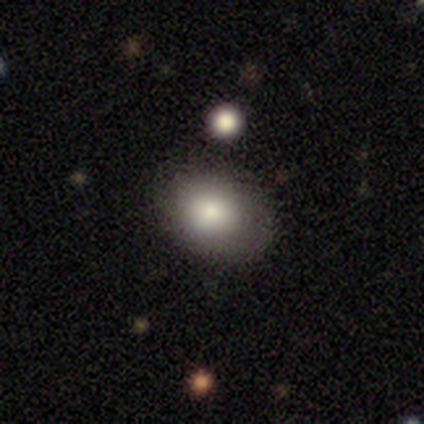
Q: Smooth or featured?
A: smooth (75%); runner-up: featured or disk (12%)
Q: How rounded?
A: in between (83%); runner-up: round (17%)
Q: Merging?
A: none (86%); runner-up: minor disturbance (14%)